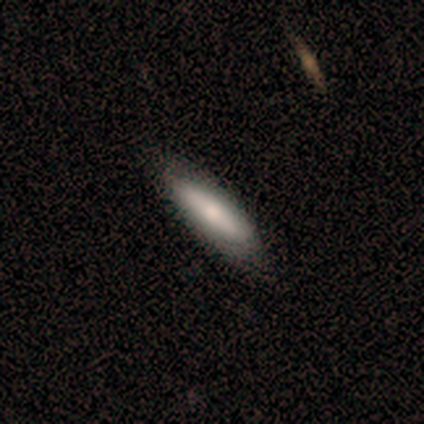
A smooth galaxy with no disk features (40%, tied with star or artifact) that is in between round and cigar-shaped (50%, tied with cigar-shaped).

Vote fractions:
- Smooth or featured? smooth: 40% (tied) / star or artifact: 40% (tied) / featured or disk: 20%
- How rounded? in between: 50% (tied) / cigar-shaped: 50% (tied) / round: 0%
- Merging? minor disturbance: 67% / none: 33% / major disturbance: 0% / merger: 0%